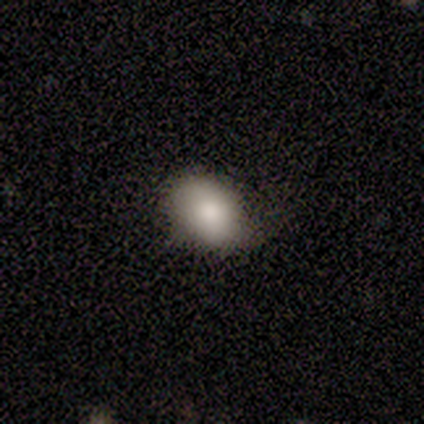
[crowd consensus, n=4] Volunteers were most divided on "how rounded" (2-way tie): round: 50%, in between: 50%, cigar-shaped: 0%. More confident: merging — none (67%); smooth or featured — smooth (50%).